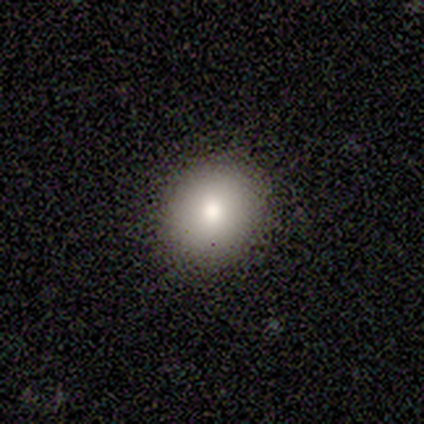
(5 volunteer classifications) Smooth or featured: smooth — 80% (featured or disk — 20%)
How rounded: round — 75% (in between — 25%)
Merging: none — 100%